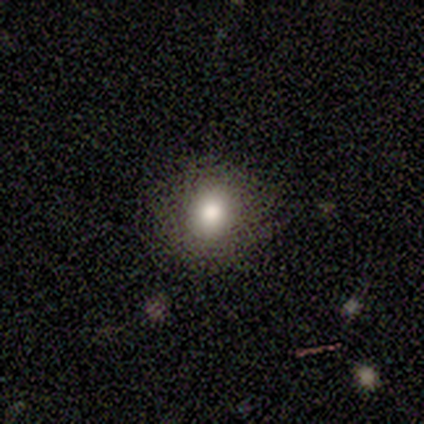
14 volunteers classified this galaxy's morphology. Overall: smooth (86%). How rounded: round (83%). Merging: none (92%).